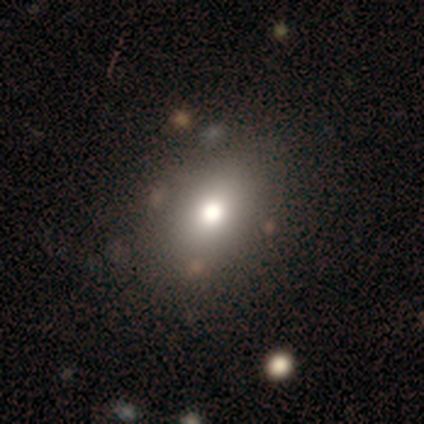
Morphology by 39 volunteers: A smooth galaxy with no disk features (67%) that is in between round and cigar-shaped (69%).

Vote fractions:
- Smooth or featured? smooth: 67% / featured or disk: 21% / star or artifact: 13%
- How rounded? in between: 69% / round: 27% / cigar-shaped: 4%
- Merging? none: 71% / minor disturbance: 18% / major disturbance: 6% / merger: 6%